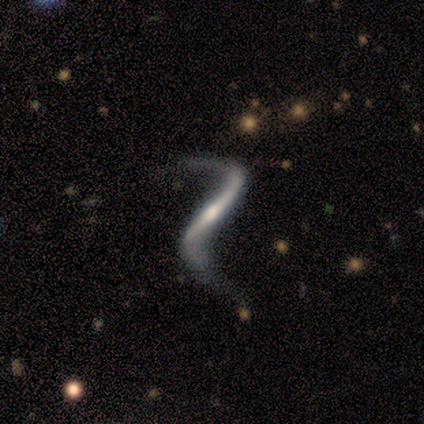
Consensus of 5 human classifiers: Smooth or featured?
  - featured or disk: 100% *
  - smooth: 0%
  - star or artifact: 0%
Edge-on disk?
  - no: 60% *
  - yes: 40%
Bar?
  - strong: 67% *
  - no: 33%
  - weak: 0%
Spiral arms?
  - yes: 100% *
  - no: 0%
Spiral winding?
  - loose: 100% *
  - tight: 0%
  - medium: 0%
Spiral arm count?
  - 2: 100% *
  - 1: 0%
  - 3: 0%
  - 4: 0%
  - more than 4: 0%
  - can't tell: 0%
Bulge size?
  - small: 67% *
  - dominant: 33%
  - large: 0%
  - moderate: 0%
  - none: 0%
Merging?
  - none: 60% *
  - minor disturbance: 20%
  - major disturbance: 20%
  - merger: 0%